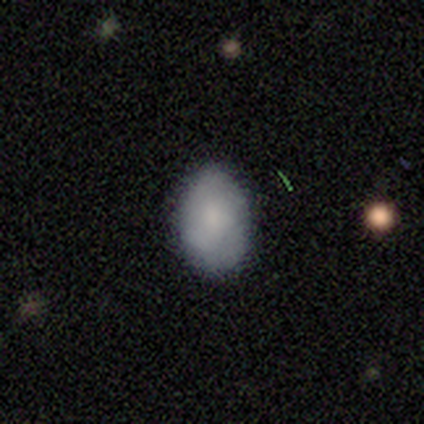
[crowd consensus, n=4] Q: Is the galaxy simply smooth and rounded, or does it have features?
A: smooth — 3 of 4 (75%).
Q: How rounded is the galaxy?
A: in between — 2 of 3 (67%).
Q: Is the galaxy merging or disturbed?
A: none — 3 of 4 (75%).